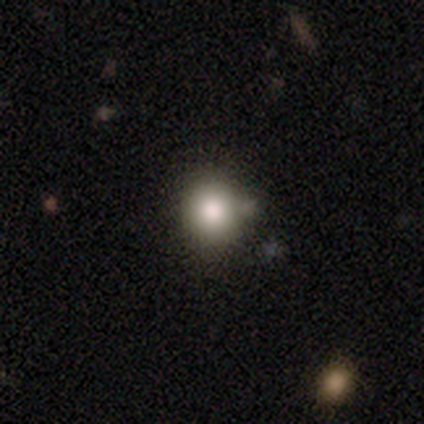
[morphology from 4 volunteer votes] A smooth galaxy with no disk features (75%) that is round (100%).

Vote fractions:
- Smooth or featured? smooth: 75% / star or artifact: 25% / featured or disk: 0%
- How rounded? round: 100% / in between: 0% / cigar-shaped: 0%
- Merging? none: 100% / minor disturbance: 0% / major disturbance: 0% / merger: 0%